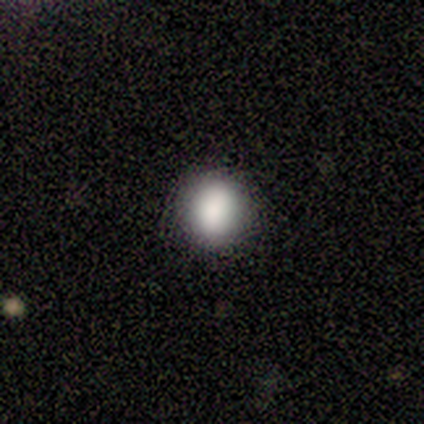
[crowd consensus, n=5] smooth-or-featured: smooth: 60% | star or artifact: 40% | featured or disk: 0%
  how-rounded: round: 100% | in between: 0% | cigar-shaped: 0%
  merging: none: 100% | minor disturbance: 0% | major disturbance: 0% | merger: 0%